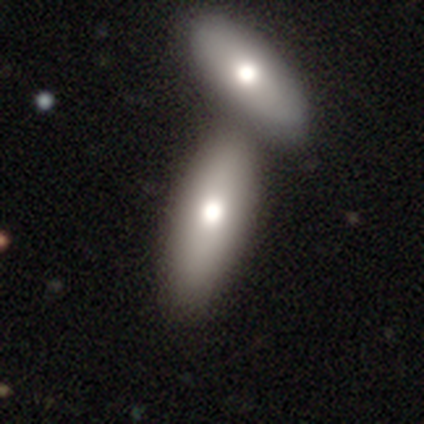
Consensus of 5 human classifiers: This is clearly a smooth galaxy (100%). How rounded: clearly in between (100%). Merging: clearly none (100%).